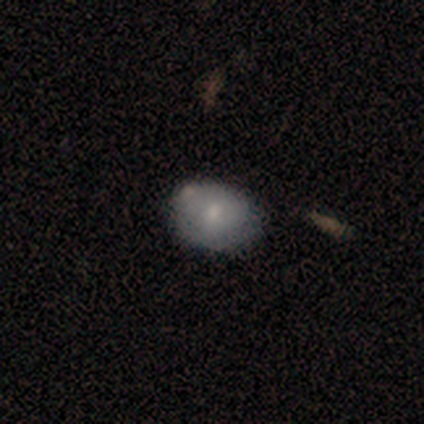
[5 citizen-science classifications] Overall: smooth (80%). How rounded: in between (75%). Merging: none (80%).